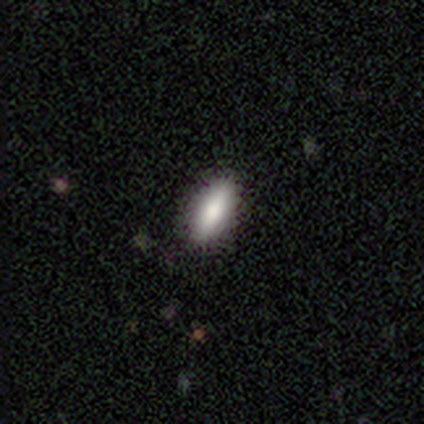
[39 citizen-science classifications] Smooth or featured: smooth — 87% (star or artifact — 8%)
How rounded: in between — 71% (cigar-shaped — 29%)
Merging: none — 92% (minor disturbance — 8%)